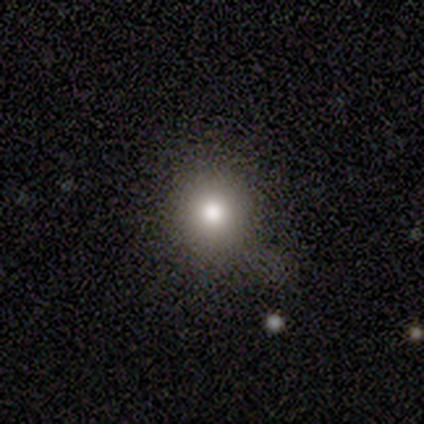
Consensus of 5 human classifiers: Overall: smooth (100%). How rounded: round (80%). Merging: none (80%).